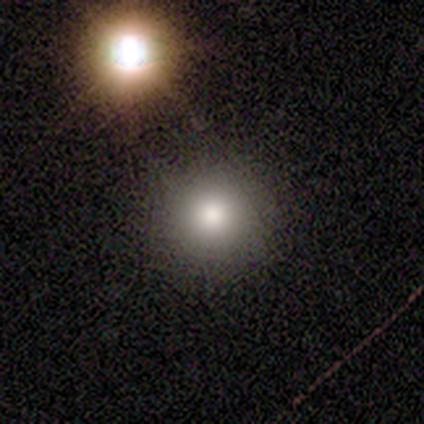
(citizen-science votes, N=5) Smooth or featured?
  - smooth: 80% *
  - star or artifact: 20%
  - featured or disk: 0%
How rounded?
  - round: 100% *
  - in between: 0%
  - cigar-shaped: 0%
Merging?
  - none: 75% *
  - major disturbance: 25%
  - minor disturbance: 0%
  - merger: 0%